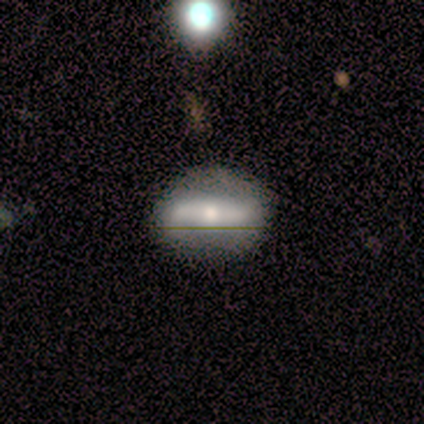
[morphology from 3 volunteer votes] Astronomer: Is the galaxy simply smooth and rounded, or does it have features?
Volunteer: featured or disk — 67%.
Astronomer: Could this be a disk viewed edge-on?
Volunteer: no — 100%.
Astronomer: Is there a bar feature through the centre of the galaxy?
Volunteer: strong — 50%, tied with no at 50%.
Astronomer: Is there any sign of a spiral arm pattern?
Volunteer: yes — 50%, tied with no at 50%.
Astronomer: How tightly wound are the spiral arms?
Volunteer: loose — 100%.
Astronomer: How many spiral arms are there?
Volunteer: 2 — 100%.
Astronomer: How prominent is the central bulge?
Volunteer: moderate — 100%.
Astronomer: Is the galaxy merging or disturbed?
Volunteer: none — 100%.